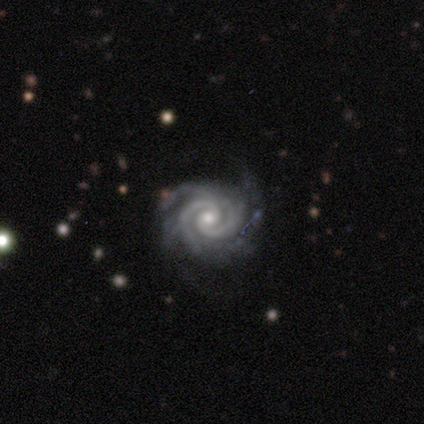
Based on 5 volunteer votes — This is clearly a featured or disk galaxy (100%). It is clearly not viewed edge-on (100%). Bar: likely no (60%). Spiral arm pattern: clearly yes (100%). Spiral arm count: clearly 2 (80%). Spiral winding: likely tight (60%). Central bulge: clearly moderate (80%). Merging: likely none (60%).